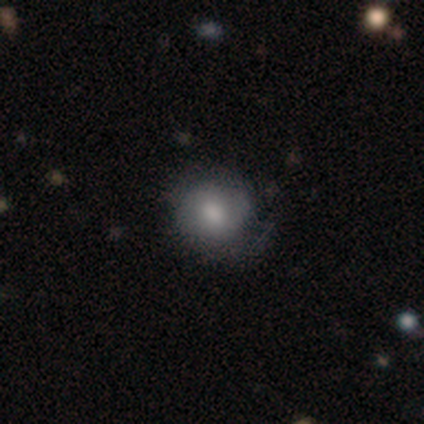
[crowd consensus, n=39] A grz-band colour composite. It shows a smooth galaxy with no disk features (59%) that is round (91%). Merging: none (66%).